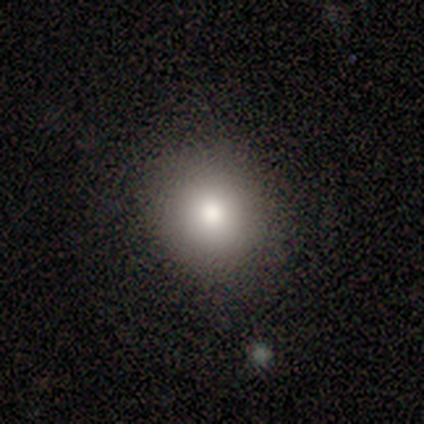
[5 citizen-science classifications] A smooth galaxy with no disk features (80%) that is round (50%, tied with in between). Merging: none (100%).